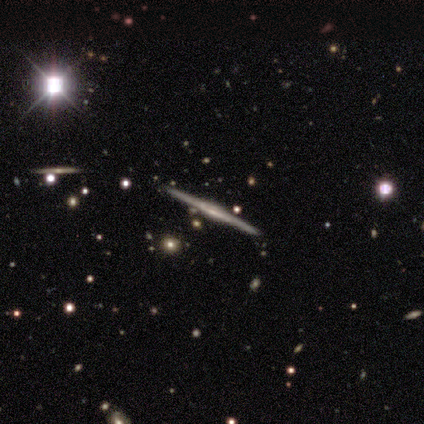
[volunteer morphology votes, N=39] type=featured or disk (79%); edge-on=yes (97%); edge-on bulge=rounded (40%); merging=none (91%).